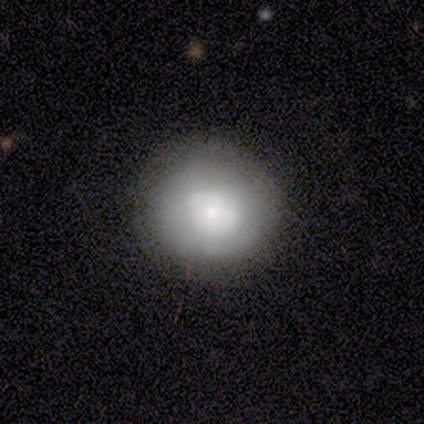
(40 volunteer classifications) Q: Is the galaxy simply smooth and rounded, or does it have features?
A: smooth — 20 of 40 (50%).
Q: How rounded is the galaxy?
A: round — 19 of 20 (95%).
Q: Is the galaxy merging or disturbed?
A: none — 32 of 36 (89%).